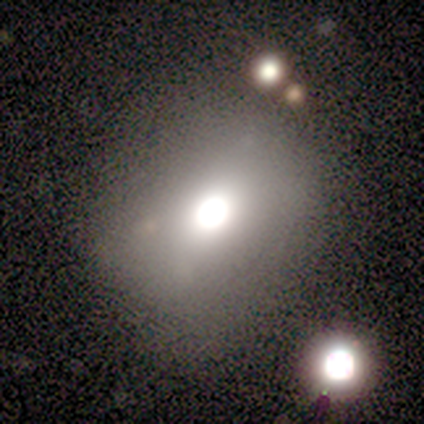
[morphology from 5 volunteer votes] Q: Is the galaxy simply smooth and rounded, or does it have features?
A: smooth — 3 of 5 (60%).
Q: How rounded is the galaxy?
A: in between — 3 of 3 (100%).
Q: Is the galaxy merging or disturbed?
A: none — 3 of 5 (60%).